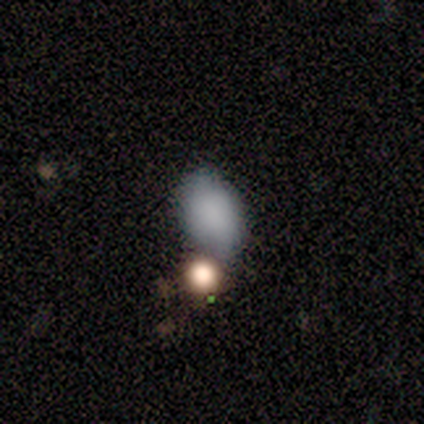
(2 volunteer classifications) Smooth or featured: smooth — 100%
How rounded: in between — 100%
Merging: minor disturbance — 50% (tied with major disturbance — 50%)